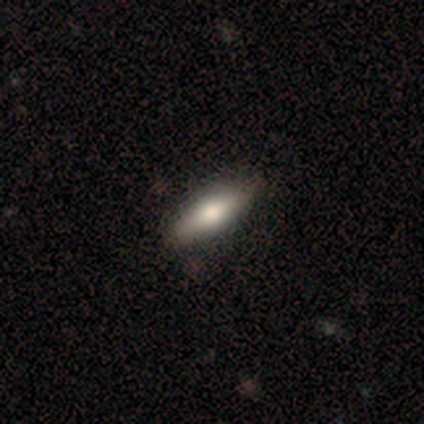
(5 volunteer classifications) Smooth or featured?
  - smooth: 80% *
  - featured or disk: 20%
  - star or artifact: 0%
How rounded?
  - in between: 50% * (tied)
  - cigar-shaped: 50% * (tied)
  - round: 0%
Merging?
  - none: 80% *
  - minor disturbance: 20%
  - major disturbance: 0%
  - merger: 0%